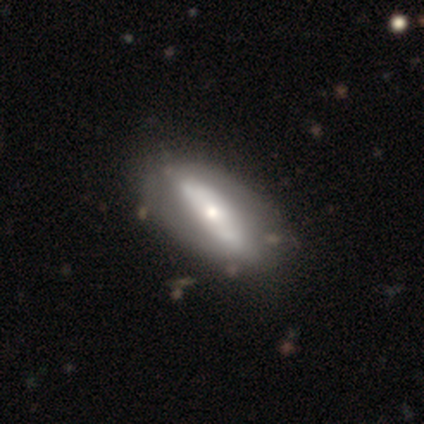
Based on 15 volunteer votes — featured or disk 67%, smooth 27%, star or artifact 7%. Down the decision tree: edge-on disk — no (70%); bar — no (57%); spiral arms — no (86%); bulge size — small (57%); merging — none (93%).